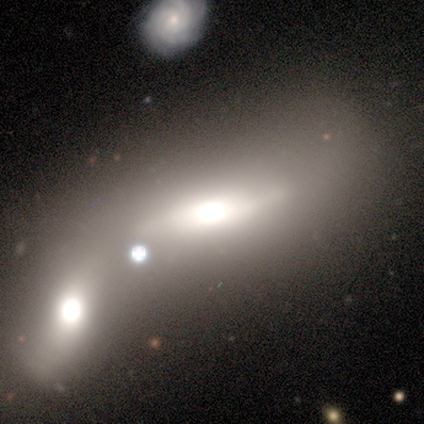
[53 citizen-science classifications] Q: Smooth or featured?
A: smooth (60%); runner-up: featured or disk (28%)
Q: How rounded?
A: in between (69%); runner-up: cigar-shaped (31%)
Q: Merging?
A: merger (64%); runner-up: none (13%)